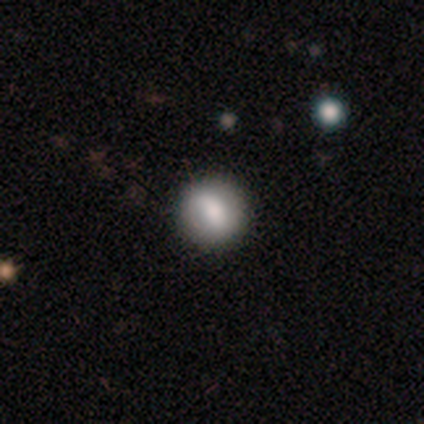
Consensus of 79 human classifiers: Morphology: type=smooth (72%); roundness=round (89%); merging=none (47%).